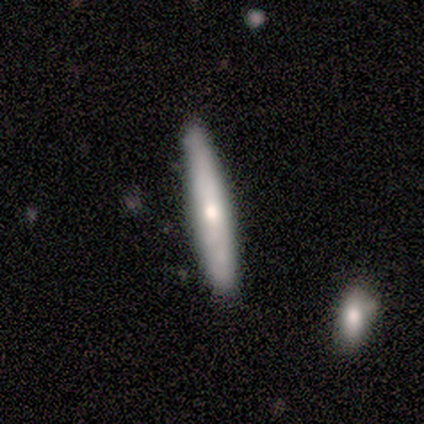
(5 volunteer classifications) Smooth or featured? 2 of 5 (40%, tied with featured or disk) said smooth. How rounded? 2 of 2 (100%) said cigar-shaped. Merging? 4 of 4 (100%) said none.